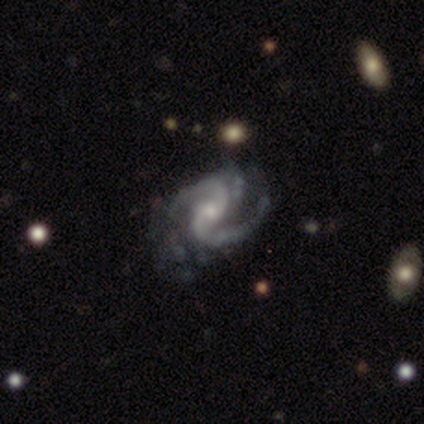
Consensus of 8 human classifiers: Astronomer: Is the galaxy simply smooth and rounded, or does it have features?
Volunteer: featured or disk — 88%.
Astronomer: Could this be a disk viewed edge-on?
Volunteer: no — 100%.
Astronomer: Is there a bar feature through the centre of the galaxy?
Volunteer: no — 71%.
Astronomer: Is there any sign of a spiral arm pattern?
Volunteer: yes — 100%.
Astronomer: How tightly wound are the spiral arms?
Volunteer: medium — 100%.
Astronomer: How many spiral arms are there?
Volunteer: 2 — 100%.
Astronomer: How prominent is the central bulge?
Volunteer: moderate — 43%, tied with small at 43%.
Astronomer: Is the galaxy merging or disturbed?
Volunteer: none — 57%.